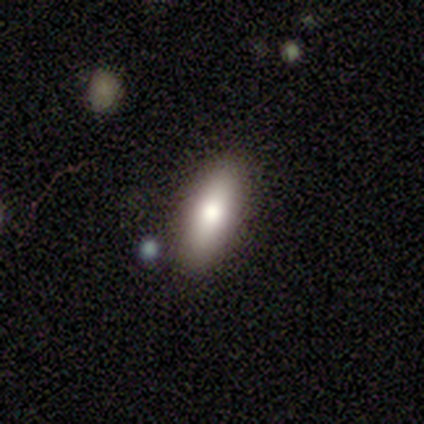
Overall: smooth (80%). How rounded: in between (75%). Merging: none (100%).